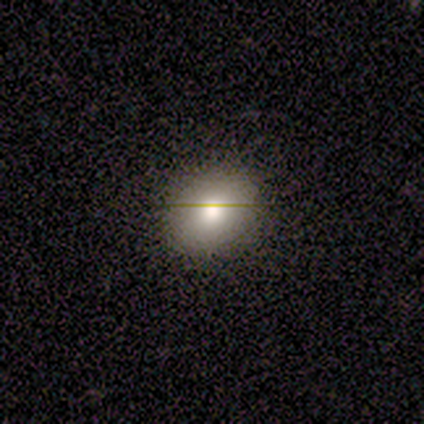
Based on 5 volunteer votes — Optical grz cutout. It shows a smooth galaxy with no disk features (60%) that is round (100%). Merging: none (75%).